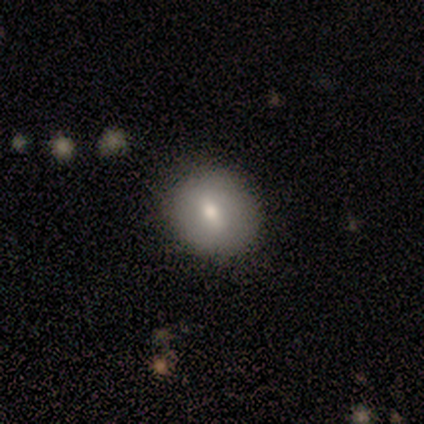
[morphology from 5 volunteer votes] Smooth or featured? smooth (80%)
How rounded? round (100%)
Merging? none (100%)